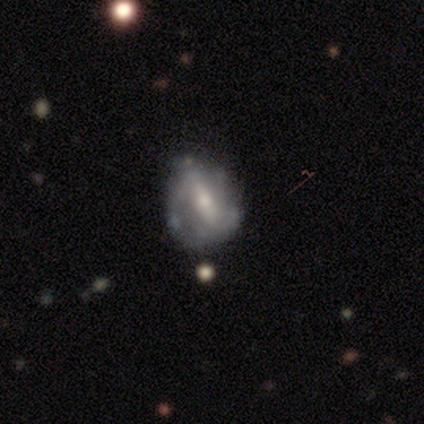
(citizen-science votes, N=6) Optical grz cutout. It shows a featured or disk galaxy (83%) with a strong bar (80%), no spiral arms (60%) and a moderate central bulge (80%). Merging: none (67%).